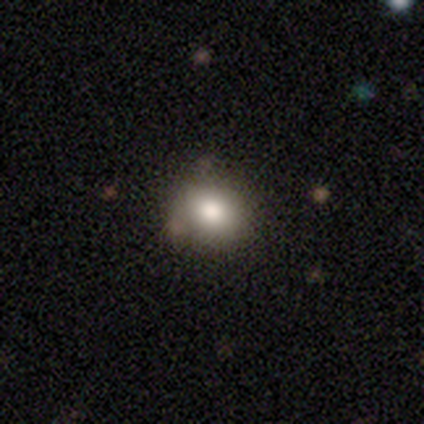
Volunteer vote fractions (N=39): Volunteers were most divided on "how rounded": round: 71%, in between: 29%, cigar-shaped: 0%. More confident: smooth or featured — smooth (87%); merging — none (60%).